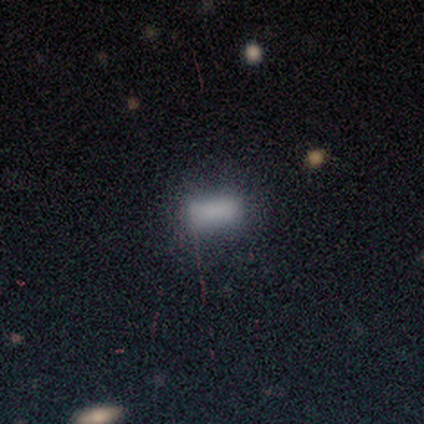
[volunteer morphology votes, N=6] smooth_or_featured: smooth (p=0.50) [alt: featured or disk p=0.33]
how_rounded: in between (p=0.67) [alt: cigar-shaped p=0.33]
merging: minor disturbance (p=0.60) [alt: none p=0.40]